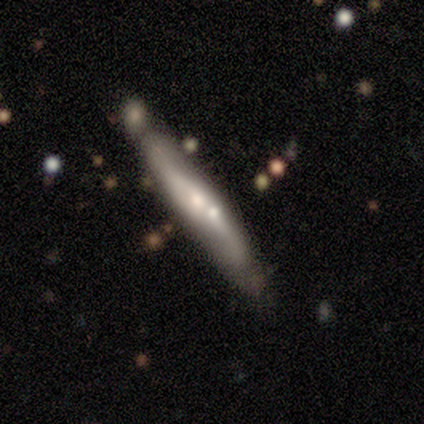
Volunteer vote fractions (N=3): A featured or disk galaxy (67%) viewed edge-on (50%, tied with no) with a rounded central bulge (100%). Merging: none (33%, tied with minor disturbance and merger).